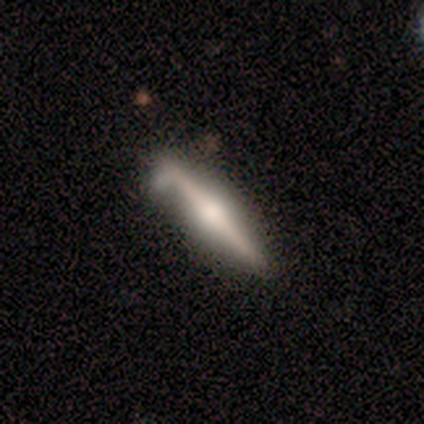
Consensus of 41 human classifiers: Smooth or featured?
  - featured or disk: 85% *
  - smooth: 15%
  - star or artifact: 0%
Edge-on disk?
  - yes: 94% *
  - no: 6%
Edge-on bulge?
  - rounded: 94% *
  - boxy: 6%
  - none: 0%
Merging?
  - none: 63% *
  - minor disturbance: 32%
  - major disturbance: 2%
  - merger: 2%